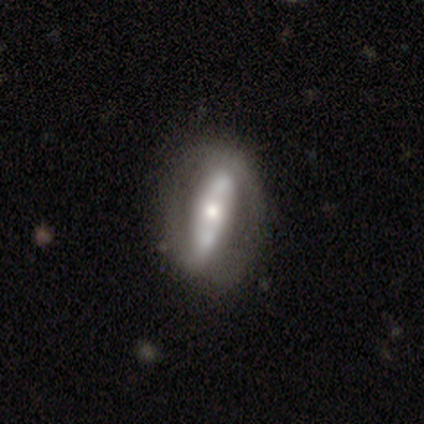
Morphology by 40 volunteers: smooth_or_featured: featured or disk (p=0.78) [alt: smooth p=0.17]
disk_edge_on: no (p=0.68) [alt: yes p=0.32]
bar: strong (p=0.62) [alt: no p=0.38]
has_spiral_arms: no (p=0.52) [alt: yes p=0.48]
bulge_size: moderate (p=0.67) [alt: small p=0.29]
merging: none (p=0.61) [alt: merger p=0.18]